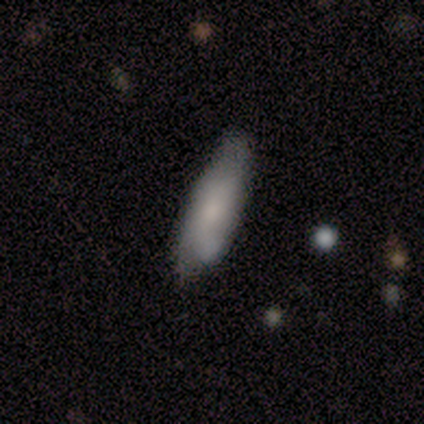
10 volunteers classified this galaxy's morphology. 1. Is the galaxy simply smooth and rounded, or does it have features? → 50% smooth, 40% featured or disk, 10% star or artifact.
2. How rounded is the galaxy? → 60% cigar-shaped, 40% in between, 0% round.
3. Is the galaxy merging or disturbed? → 44% none, 33% minor disturbance, 11% major disturbance, 11% merger.